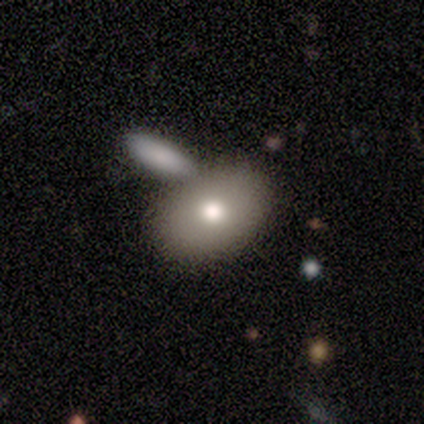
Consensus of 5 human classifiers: smooth-or-featured: smooth: 80% | featured or disk: 20% | star or artifact: 0%
  how-rounded: in between: 100% | round: 0% | cigar-shaped: 0%
  merging: none: 80% | minor disturbance: 20% | major disturbance: 0% | merger: 0%